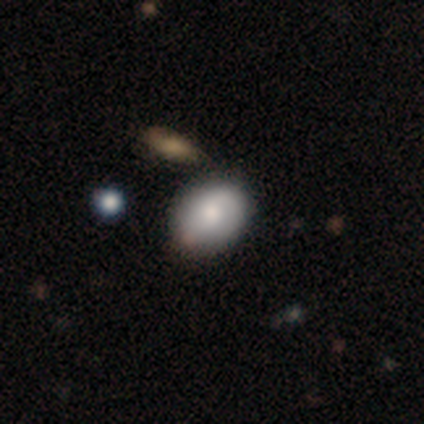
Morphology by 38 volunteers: This is likely a smooth galaxy (76%). How rounded: likely in between (69%). Merging: likely none (72%).